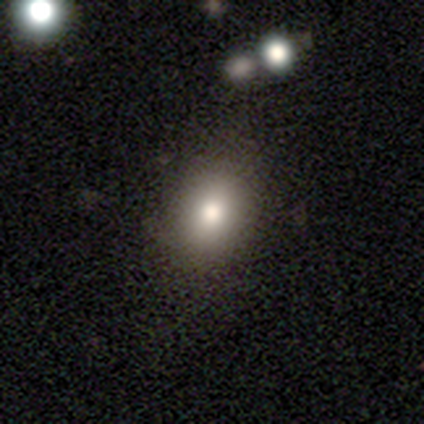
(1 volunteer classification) smooth_or_featured: star or artifact (p=1.00)